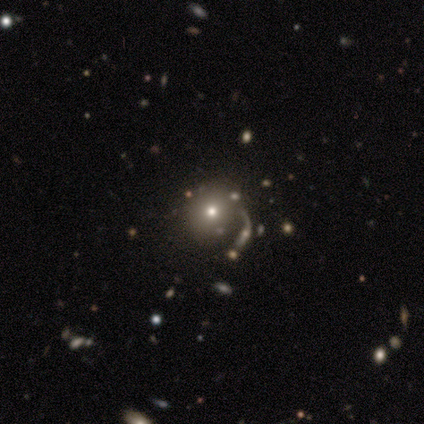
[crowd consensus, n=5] smooth_or_featured: smooth (p=0.40) [tied with: star or artifact p=0.40]
how_rounded: round (p=1.00)
merging: none (p=0.33) [tied with: minor disturbance p=0.33, merger p=0.33]